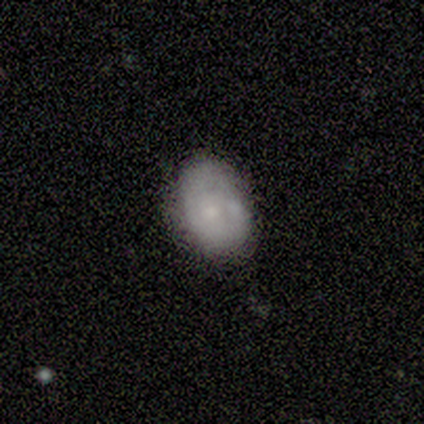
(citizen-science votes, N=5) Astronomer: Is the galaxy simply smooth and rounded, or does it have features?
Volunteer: smooth — 40%, tied with featured or disk at 40%.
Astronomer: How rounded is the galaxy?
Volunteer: in between — 100%.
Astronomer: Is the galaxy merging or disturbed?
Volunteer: none — 75%.